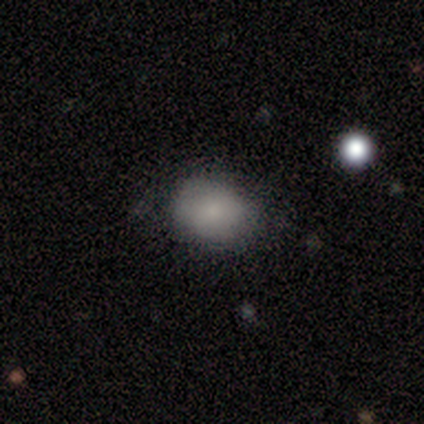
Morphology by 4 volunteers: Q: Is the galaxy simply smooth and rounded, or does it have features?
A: smooth — 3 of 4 (75%).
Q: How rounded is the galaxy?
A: in between — 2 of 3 (67%).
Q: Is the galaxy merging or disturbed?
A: none — 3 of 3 (100%).